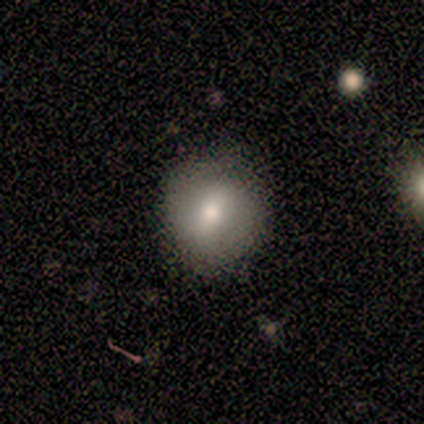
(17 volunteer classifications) smooth 59%, featured or disk 24%, star or artifact 18%. Down the decision tree: how rounded — round (70%); merging — none (86%).